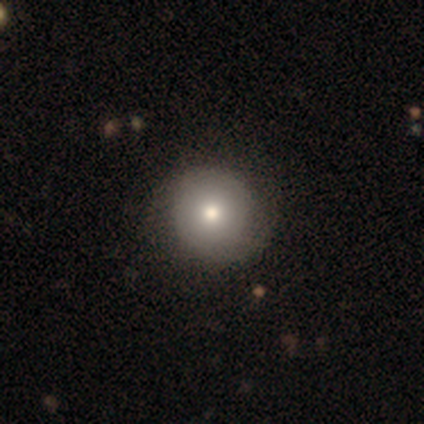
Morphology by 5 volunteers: A smooth galaxy with no disk features (100%) that is round (80%). Merging: none (100%).